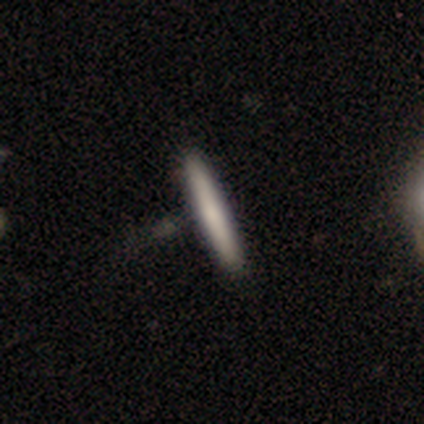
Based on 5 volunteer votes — A featured or disk galaxy (100%) viewed edge-on (100%) with no central bulge (60%). Merging: none (60%).